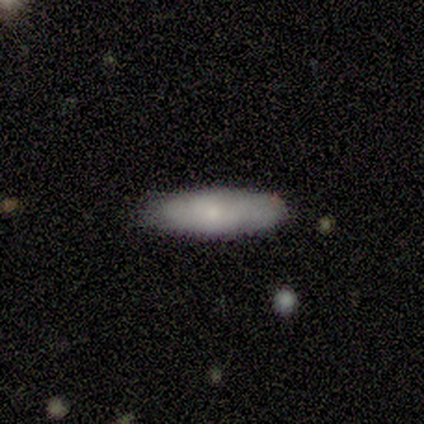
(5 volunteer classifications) A smooth galaxy with no disk features (60%) that is in between round and cigar-shaped (67%). Merging: none (80%).